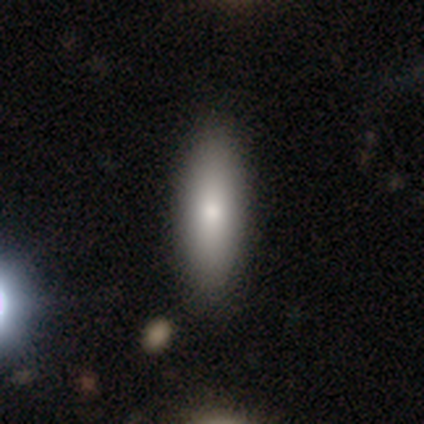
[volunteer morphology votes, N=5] Q: Smooth or featured?
A: smooth (100%)
Q: How rounded?
A: in between (60%); runner-up: cigar-shaped (40%)
Q: Merging?
A: none (100%)